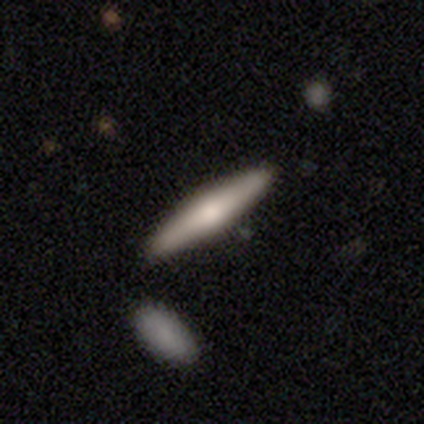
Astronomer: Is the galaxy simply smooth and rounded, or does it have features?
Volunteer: smooth — 53% (runner-up: featured or disk, 44%).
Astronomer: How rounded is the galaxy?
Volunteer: cigar-shaped — 95%.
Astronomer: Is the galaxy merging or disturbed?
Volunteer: none — 89%.